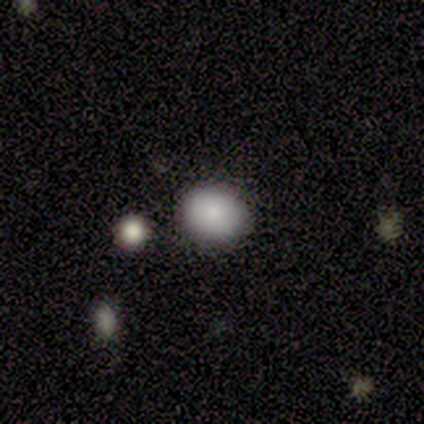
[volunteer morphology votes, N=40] Volunteers were most divided on "how rounded": round: 62%, in between: 38%, cigar-shaped: 0%. More confident: smooth or featured — smooth (85%); merging — none (70%).